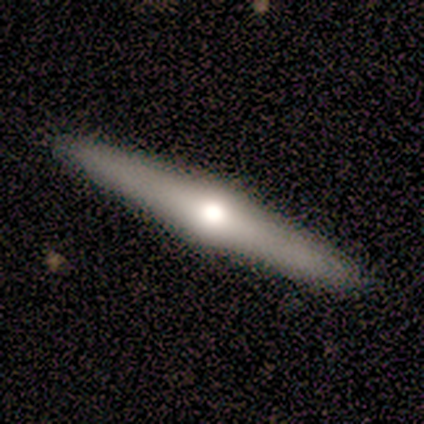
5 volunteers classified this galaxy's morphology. A featured or disk galaxy (80%) viewed edge-on (75%) with a rounded central bulge (100%). Merging: none (100%).